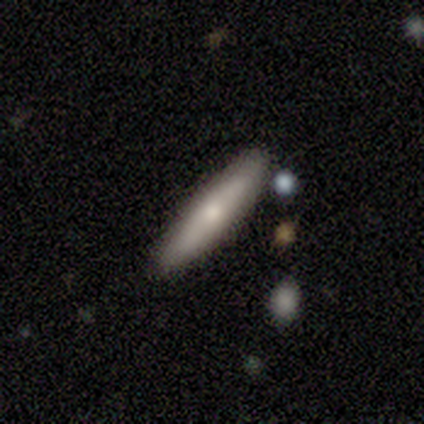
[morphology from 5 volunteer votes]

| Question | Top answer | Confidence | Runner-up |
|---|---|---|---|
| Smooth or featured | smooth | 100% | — |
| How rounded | cigar-shaped | 100% | — |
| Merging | none | 100% | — |